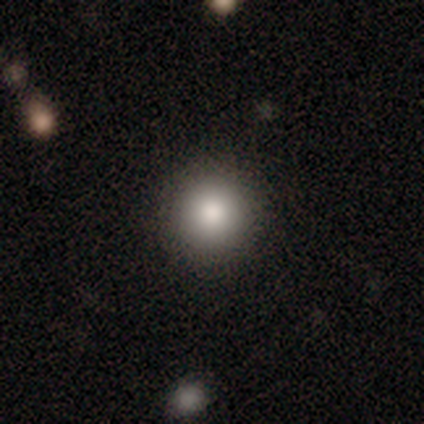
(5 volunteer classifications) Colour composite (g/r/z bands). It shows a smooth galaxy with no disk features (60%) that is round (100%). Merging: none (100%).